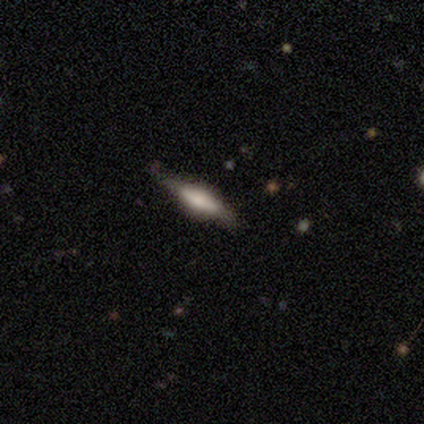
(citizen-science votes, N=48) Smooth or featured? featured or disk (73%)
Edge-on disk? yes (97%)
Edge-on bulge? rounded (50%)
Merging? none (80%)